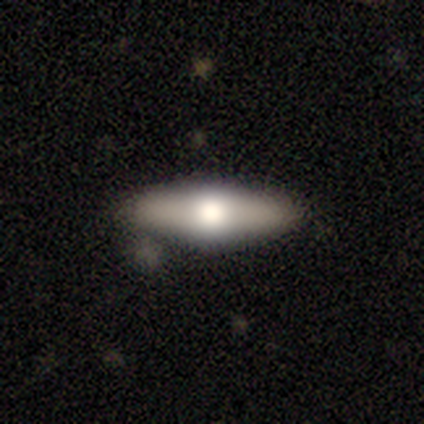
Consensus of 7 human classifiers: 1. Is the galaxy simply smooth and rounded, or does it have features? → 57% smooth, 43% featured or disk, 0% star or artifact.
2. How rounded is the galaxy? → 50% in between (tied), 50% cigar-shaped (tied), 0% round.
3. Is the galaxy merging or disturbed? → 100% none, 0% minor disturbance, 0% major disturbance, 0% merger.